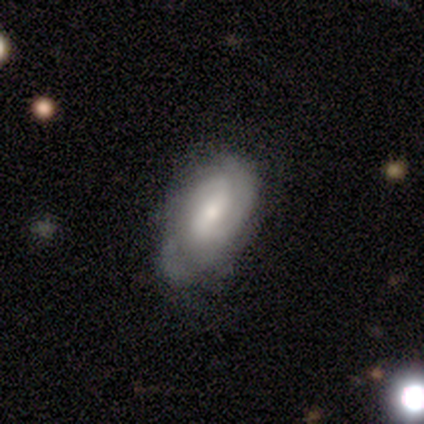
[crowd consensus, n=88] Morphology: type=featured or disk (65%); edge-on=no (96%); bar=weak (51%); spiral arms=yes (91%); winding=tight (58%); arm count=2 (56%); bulge=moderate (53%); merging=none (70%).